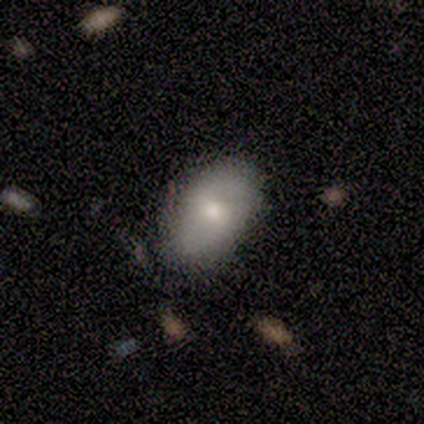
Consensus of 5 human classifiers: Smooth or featured?
  - smooth: 80% *
  - featured or disk: 20%
  - star or artifact: 0%
How rounded?
  - in between: 100% *
  - round: 0%
  - cigar-shaped: 0%
Merging?
  - none: 80% *
  - minor disturbance: 20%
  - major disturbance: 0%
  - merger: 0%